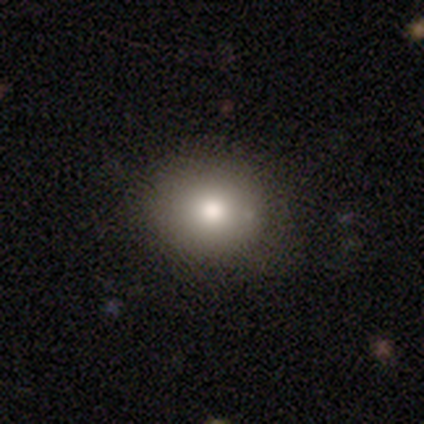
Smooth or featured: smooth — 82% (featured or disk — 18%)
How rounded: round — 100%
Merging: none — 91% (merger — 9%)